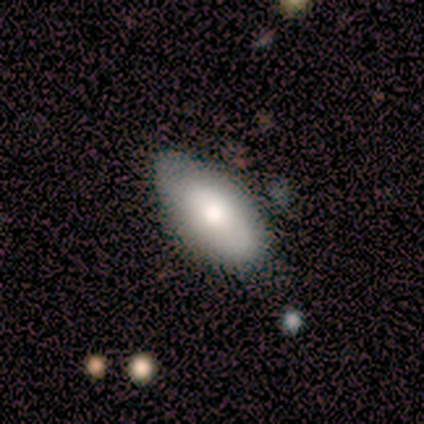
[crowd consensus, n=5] This is likely a featured or disk galaxy (60%). It is clearly not viewed edge-on (100%). Bar: clearly no (100%). Spiral arm pattern: likely no (67%). Central bulge: clearly moderate (100%). Merging: clearly none (100%).